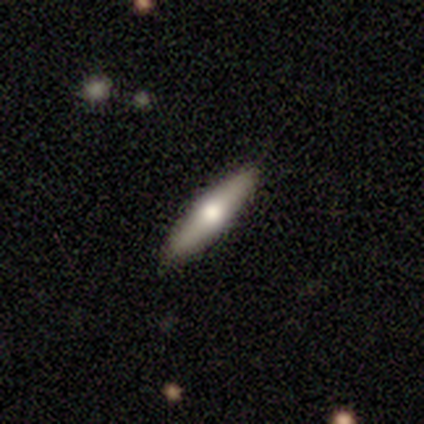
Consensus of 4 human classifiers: This appears to be a smooth galaxy with no disk features (50%) that is in between round and cigar-shaped (100%). Merging: none (100%).